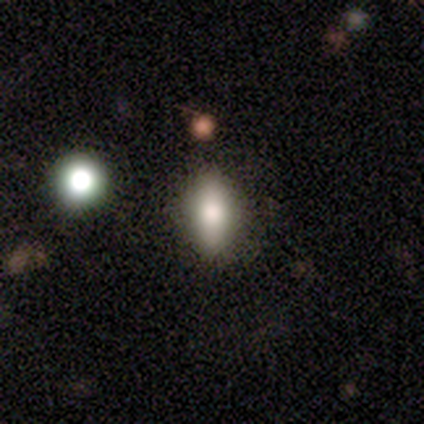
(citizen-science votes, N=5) smooth_or_featured: smooth (p=1.00)
how_rounded: in between (p=1.00)
merging: none (p=0.80) [alt: minor disturbance p=0.20]